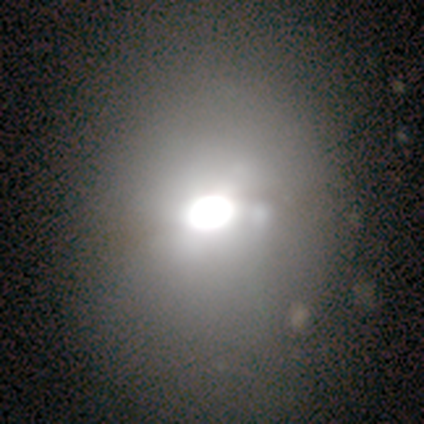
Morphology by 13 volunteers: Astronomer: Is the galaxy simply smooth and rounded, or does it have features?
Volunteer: smooth — 62%.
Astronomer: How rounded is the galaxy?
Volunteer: round — 50%, tied with in between at 50%.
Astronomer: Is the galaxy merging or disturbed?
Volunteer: none — 80%.